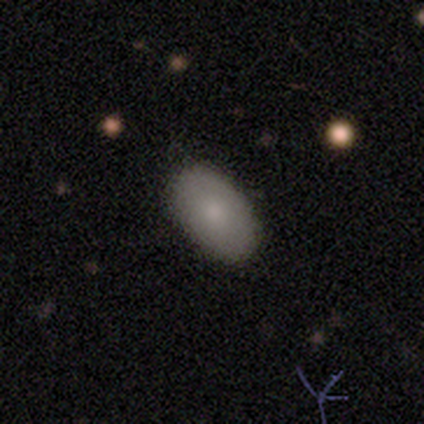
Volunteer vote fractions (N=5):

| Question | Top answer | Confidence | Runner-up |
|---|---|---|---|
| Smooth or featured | smooth | 80% | featured or disk (20%) |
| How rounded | in between | 100% | — |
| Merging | none | 80% | minor disturbance (20%) |